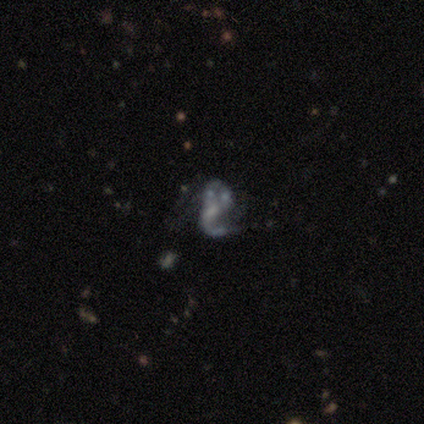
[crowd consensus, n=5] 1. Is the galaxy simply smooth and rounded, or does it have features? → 100% featured or disk, 0% smooth, 0% star or artifact.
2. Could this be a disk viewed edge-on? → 100% no, 0% yes.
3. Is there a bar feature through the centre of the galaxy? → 60% weak, 40% no, 0% strong.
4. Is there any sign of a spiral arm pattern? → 80% yes, 20% no.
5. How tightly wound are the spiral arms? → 75% loose, 25% medium, 0% tight.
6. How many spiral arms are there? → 50% 1 (tied), 50% 2 (tied), 0% 3, 0% 4, 0% more than 4, 0% can't tell.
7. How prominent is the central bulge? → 60% moderate, 20% small, 20% none, 0% dominant, 0% large.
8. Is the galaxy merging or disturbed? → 60% none, 40% merger, 0% minor disturbance, 0% major disturbance.